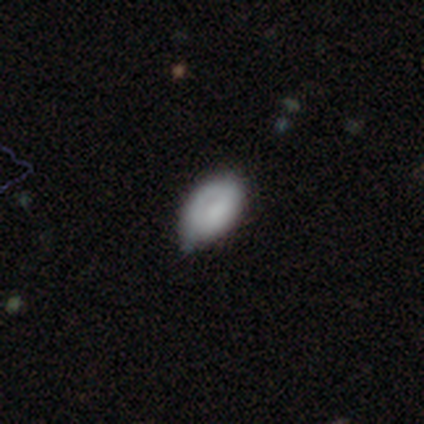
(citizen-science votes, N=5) smooth-or-featured: smooth: 80% | featured or disk: 20% | star or artifact: 0%
  how-rounded: in between: 100% | round: 0% | cigar-shaped: 0%
  merging: none: 40% (tied) | minor disturbance: 40% (tied) | major disturbance: 20% | merger: 0%